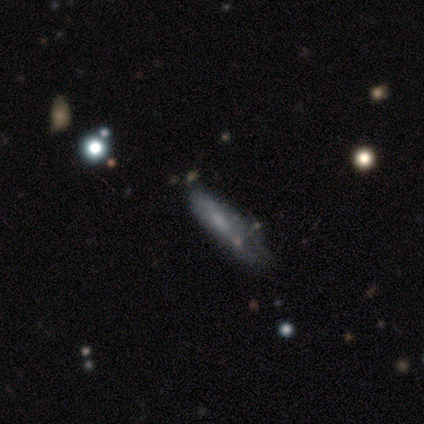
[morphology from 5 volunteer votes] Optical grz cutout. It shows a featured or disk galaxy (40%, tied with star or artifact) viewed edge-on (50%, tied with no) with no central bulge (100%). Merging: minor disturbance (33%, tied with major disturbance and merger).